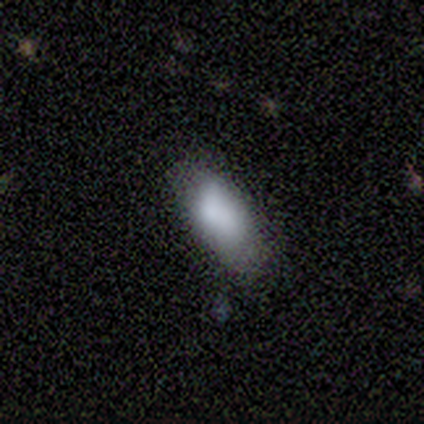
Q: Smooth or featured?
A: smooth (100%)
Q: How rounded?
A: in between (100%)
Q: Merging?
A: none (40%); tied with: minor disturbance (40%)